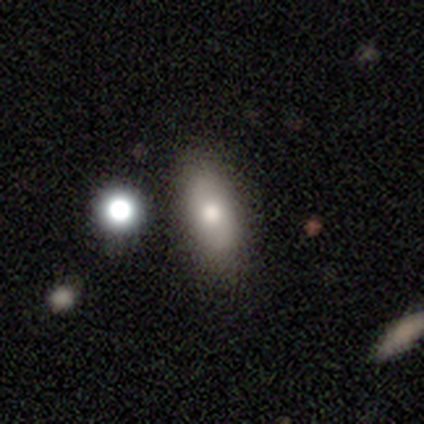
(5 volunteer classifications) This is clearly a smooth galaxy (80%). How rounded: likely in between (75%). Merging: clearly none (100%).